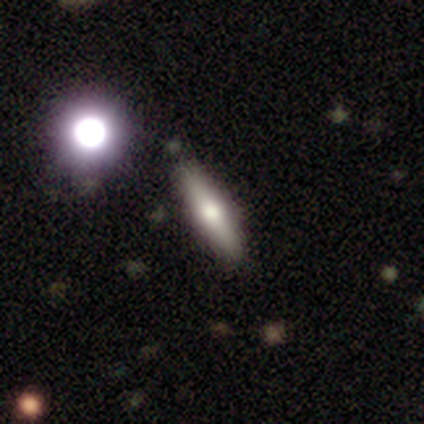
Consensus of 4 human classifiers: A featured or disk galaxy (75%) viewed edge-on (100%) with a rounded central bulge (100%). Merging: none (100%).